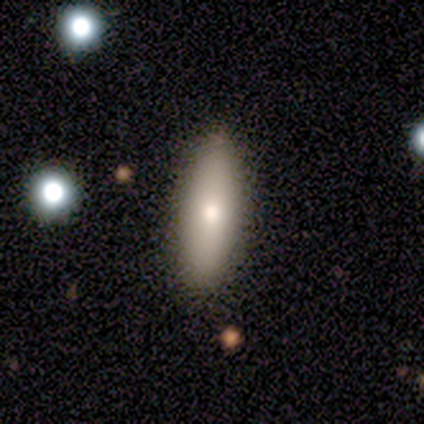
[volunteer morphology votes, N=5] Smooth or featured? 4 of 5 (80%) said smooth. How rounded? 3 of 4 (75%) said in between. Merging? 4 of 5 (80%) said none.